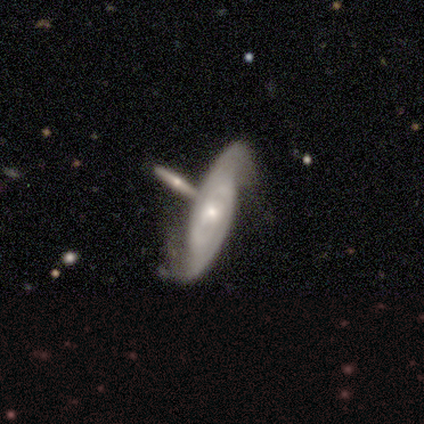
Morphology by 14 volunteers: smooth-or-featured: featured or disk: 93% | smooth: 7% | star or artifact: 0%
  disk-edge-on: no: 100% | yes: 0%
    bar: no: 77% | strong: 15% | weak: 8%
    has-spiral-arms: yes: 100% | no: 0%
      spiral-winding: tight: 54% | medium: 31% | loose: 15%
      spiral-arm-count: can't tell: 46% | 2: 38% | 1: 8% | 3: 8% | 4: 0% | more than 4: 0%
    bulge-size: small: 54% | moderate: 38% | dominant: 8% | large: 0% | none: 0%
  merging: none: 71% | minor disturbance: 21% | merger: 7% | major disturbance: 0%